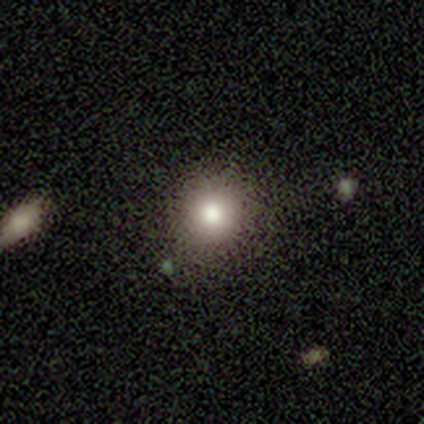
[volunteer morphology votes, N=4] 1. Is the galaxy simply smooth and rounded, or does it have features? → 50% smooth, 25% featured or disk, 25% star or artifact.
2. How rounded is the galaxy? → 100% round, 0% in between, 0% cigar-shaped.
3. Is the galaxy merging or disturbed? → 100% none, 0% minor disturbance, 0% major disturbance, 0% merger.